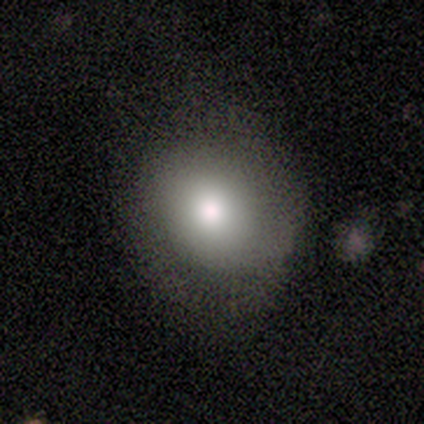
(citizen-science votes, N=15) A smooth galaxy with no disk features (67%) that is round (100%). Merging: none (85%).